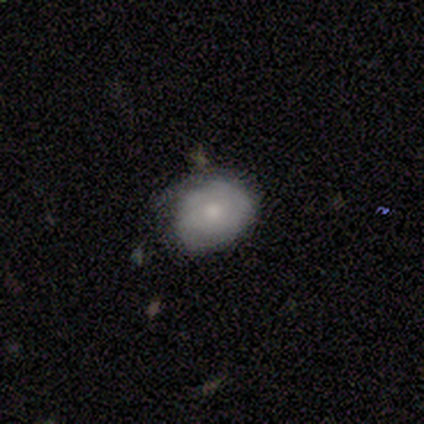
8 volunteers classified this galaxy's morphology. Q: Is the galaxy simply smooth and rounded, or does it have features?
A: smooth — 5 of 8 (62%).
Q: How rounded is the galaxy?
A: in between — 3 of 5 (60%).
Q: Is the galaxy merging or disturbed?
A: none — 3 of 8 (38%, tied with minor disturbance).